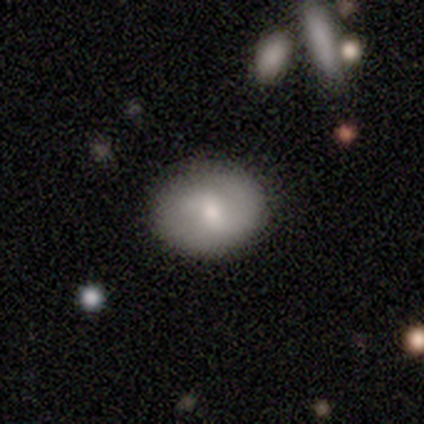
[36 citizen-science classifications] Morphology: type=smooth (61%); roundness=round (55%); merging=none (84%).